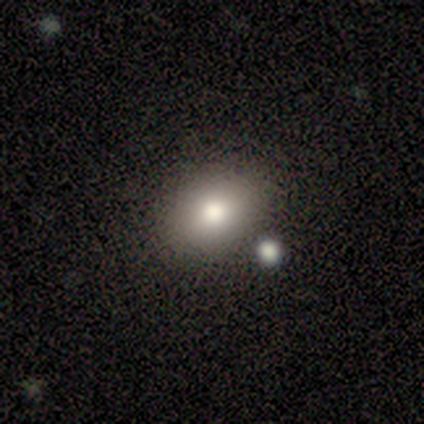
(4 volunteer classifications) This appears to be a smooth galaxy with no disk features (100%) that is in between round and cigar-shaped (100%). Merging: none (50%, tied with major disturbance).